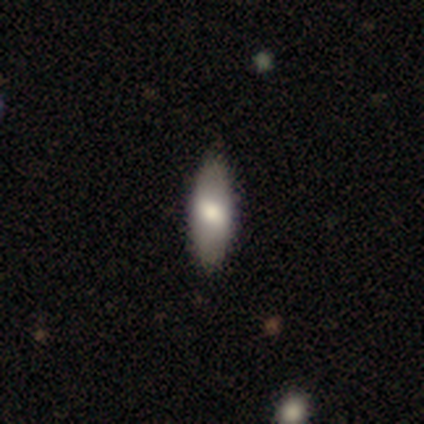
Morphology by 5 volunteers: Q: Smooth or featured?
A: smooth (40%); tied with: star or artifact (40%)
Q: How rounded?
A: in between (50%); tied with: cigar-shaped (50%)
Q: Merging?
A: none (100%)